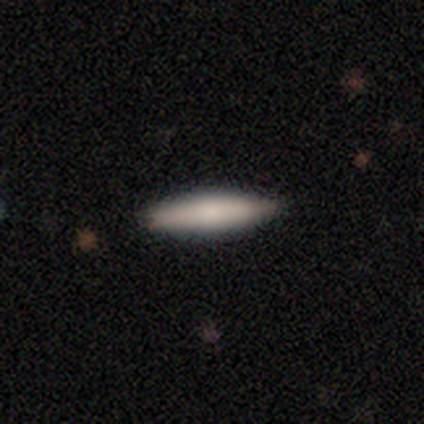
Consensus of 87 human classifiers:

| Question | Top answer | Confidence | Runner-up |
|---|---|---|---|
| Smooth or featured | smooth | 74% | featured or disk (21%) |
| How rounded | cigar-shaped | 81% | in between (17%) |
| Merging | none | 90% | minor disturbance (10%) |